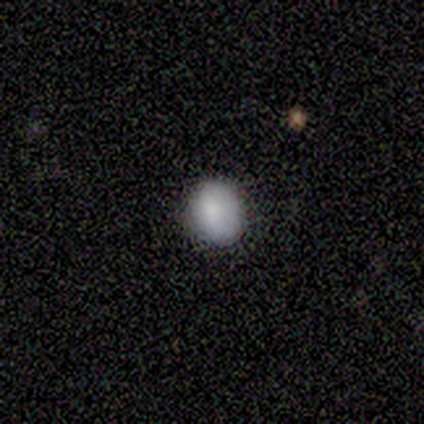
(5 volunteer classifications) Overall: smooth (100%). How rounded: in between (80%). Merging: none (80%).